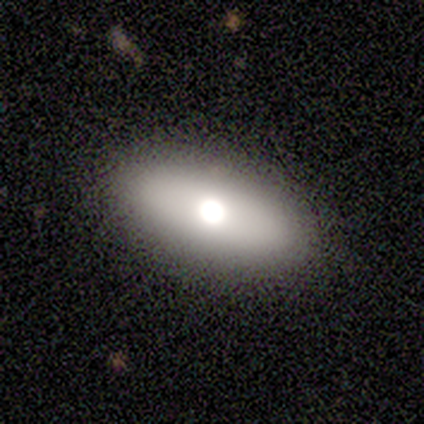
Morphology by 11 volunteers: Smooth or featured: smooth — 73% (featured or disk — 18%)
How rounded: in between — 88% (cigar-shaped — 12%)
Merging: none — 90% (major disturbance — 10%)